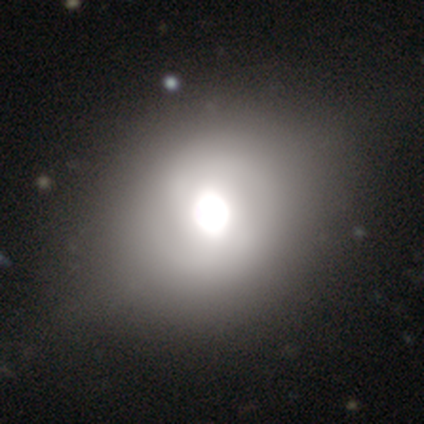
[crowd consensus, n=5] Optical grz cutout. It shows a smooth galaxy with no disk features (40%, tied with featured or disk) that is round (100%). Merging: none (50%, tied with minor disturbance).